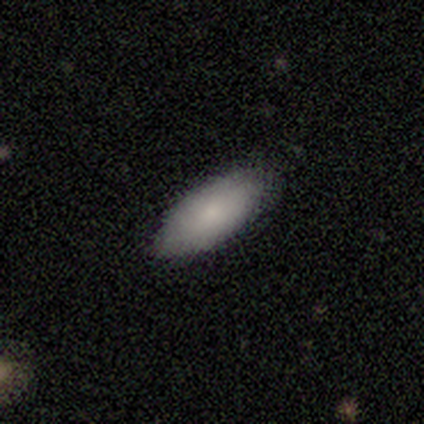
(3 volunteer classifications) A smooth galaxy with no disk features (67%) that is in between round and cigar-shaped (100%). Merging: none (100%).